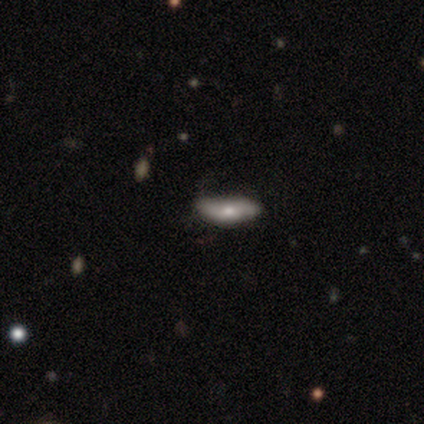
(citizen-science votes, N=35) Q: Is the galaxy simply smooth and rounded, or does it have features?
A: smooth — 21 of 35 (60%).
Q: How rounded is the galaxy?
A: in between — 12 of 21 (57%).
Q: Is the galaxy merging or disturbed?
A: none — 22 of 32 (69%).